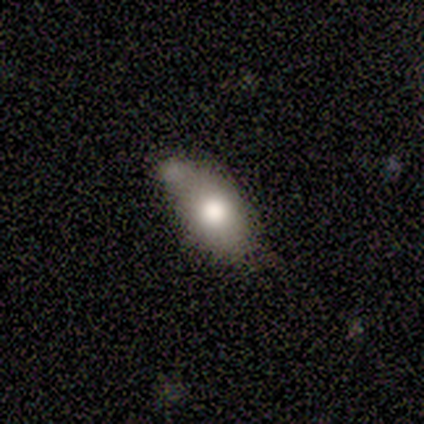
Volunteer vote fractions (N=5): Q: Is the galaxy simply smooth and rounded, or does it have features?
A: smooth — 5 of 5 (100%).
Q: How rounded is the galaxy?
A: in between — 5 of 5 (100%).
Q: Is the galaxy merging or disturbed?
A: minor disturbance — 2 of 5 (40%, tied with major disturbance).